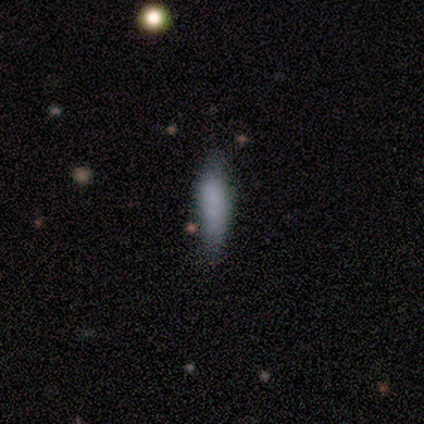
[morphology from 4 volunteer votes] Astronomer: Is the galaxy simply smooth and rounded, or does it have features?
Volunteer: smooth — 75%.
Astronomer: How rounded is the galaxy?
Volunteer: cigar-shaped — 67%.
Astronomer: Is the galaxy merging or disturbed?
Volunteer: none — 33%, tied with minor disturbance and major disturbance at 33%.